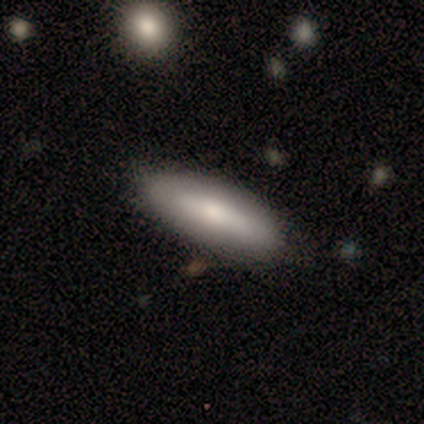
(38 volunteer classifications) smooth_or_featured: smooth (p=0.68) [alt: featured or disk p=0.21]
how_rounded: cigar-shaped (p=0.62) [alt: in between p=0.38]
merging: none (p=0.85) [alt: minor disturbance p=0.15]